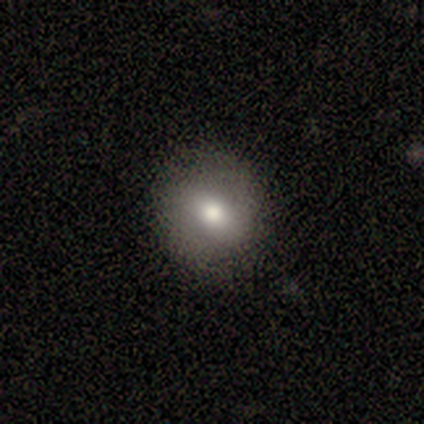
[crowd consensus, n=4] Smooth or featured: smooth — 50% (tied with star or artifact — 50%)
How rounded: round — 50% (tied with in between — 50%)
Merging: none — 100%